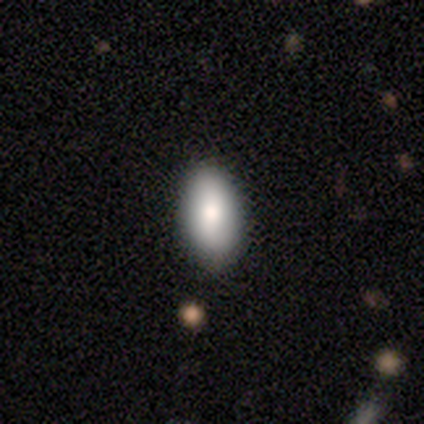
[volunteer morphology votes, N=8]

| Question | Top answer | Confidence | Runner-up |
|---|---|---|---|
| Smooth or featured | smooth | 100% | — |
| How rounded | in between | 100% | — |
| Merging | none | 75% | minor disturbance (25%) |